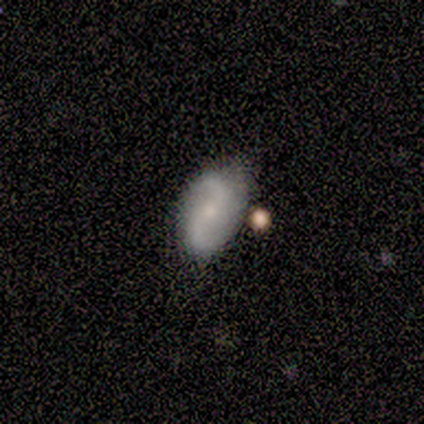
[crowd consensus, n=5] Smooth or featured? 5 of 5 (100%) said featured or disk. Edge-on disk? 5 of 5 (100%) said no. Bar? 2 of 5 (40%, tied with no) said weak. Spiral arms? 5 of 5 (100%) said yes. Spiral winding? 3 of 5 (60%) said loose. Spiral arm count? 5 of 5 (100%) said 2. Bulge size? 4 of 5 (80%) said small. Merging? 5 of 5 (100%) said none.